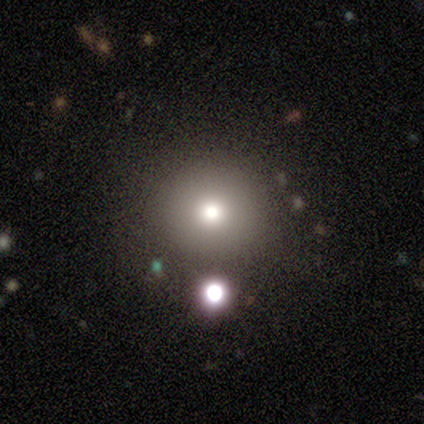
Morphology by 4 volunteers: smooth_or_featured: smooth (p=0.50) [alt: featured or disk p=0.25]
how_rounded: round (p=1.00)
merging: none (p=1.00)